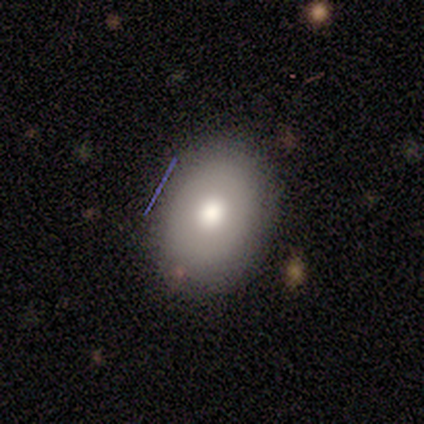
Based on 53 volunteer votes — Morphology: type=smooth (66%); roundness=in between (69%); merging=none (90%).